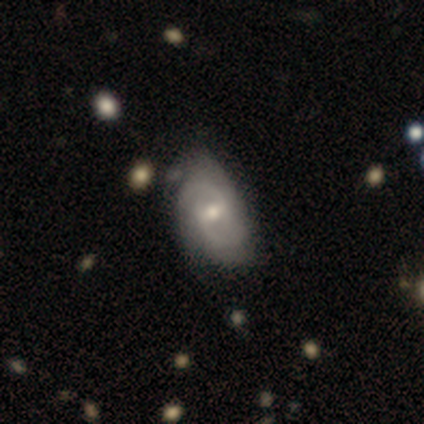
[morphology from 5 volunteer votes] A featured or disk galaxy (80%) with a weak bar (100%), 2 (100%) medium (67%) spiral arms (75%) and a small central bulge (50%).

Vote fractions:
- Smooth or featured? featured or disk: 80% / smooth: 20% / star or artifact: 0%
- Edge-on disk? no: 100% / yes: 0%
- Bar? weak: 100% / strong: 0% / no: 0%
- Spiral arms? yes: 75% / no: 25%
- Spiral winding? medium: 67% / loose: 33% / tight: 0%
- Spiral arm count? 2: 100% / 1: 0% / 3: 0% / 4: 0% / more than 4: 0% / can't tell: 0%
- Bulge size? small: 50% / large: 25% / moderate: 25% / dominant: 0% / none: 0%
- Merging? none: 80% / minor disturbance: 20% / major disturbance: 0% / merger: 0%